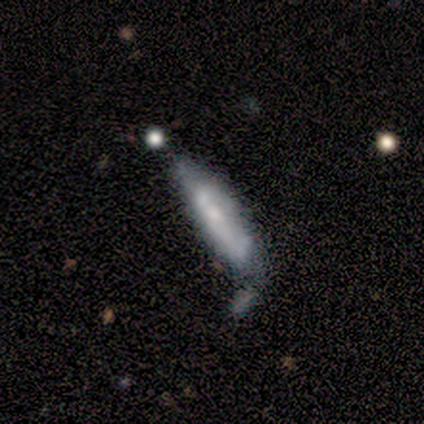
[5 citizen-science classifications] Smooth or featured? smooth (60%)
How rounded? in between (67%)
Merging? none (80%)